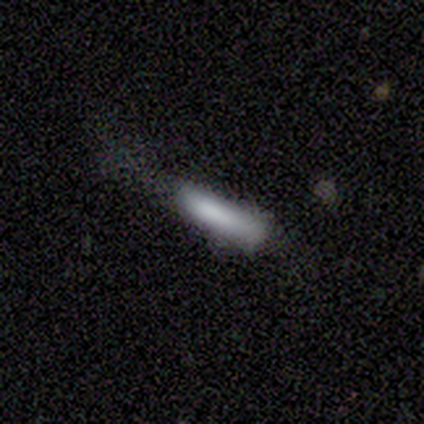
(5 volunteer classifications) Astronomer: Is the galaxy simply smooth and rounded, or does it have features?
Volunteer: smooth — 100%.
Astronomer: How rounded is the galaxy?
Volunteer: cigar-shaped — 80%.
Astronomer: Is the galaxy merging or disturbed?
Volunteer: none — 60%.